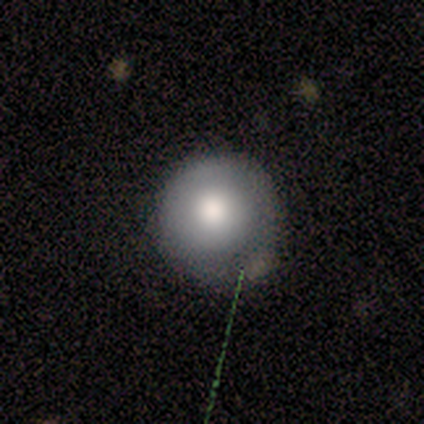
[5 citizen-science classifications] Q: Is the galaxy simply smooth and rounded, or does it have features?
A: smooth — 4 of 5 (80%).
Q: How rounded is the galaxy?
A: round — 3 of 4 (75%).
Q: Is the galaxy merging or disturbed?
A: none — 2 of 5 (40%, tied with minor disturbance).